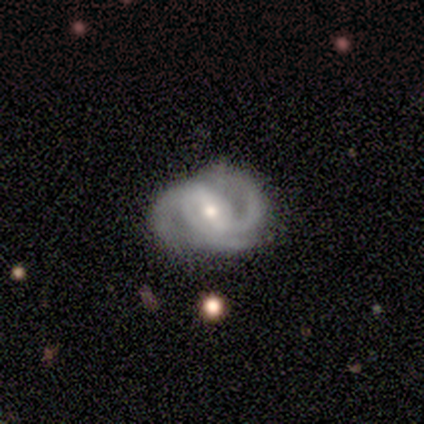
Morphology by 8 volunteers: A featured or disk galaxy (100%) with a strong bar (62%), 2 (62%) medium (62%) spiral arms (100%) and a moderate central bulge (75%).

Vote fractions:
- Smooth or featured? featured or disk: 100% / smooth: 0% / star or artifact: 0%
- Edge-on disk? no: 100% / yes: 0%
- Bar? strong: 62% / weak: 25% / no: 12%
- Spiral arms? yes: 100% / no: 0%
- Spiral winding? medium: 62% / loose: 25% / tight: 12%
- Spiral arm count? 2: 62% / 3: 38% / 1: 0% / 4: 0% / more than 4: 0% / can't tell: 0%
- Bulge size? moderate: 75% / small: 25% / dominant: 0% / large: 0% / none: 0%
- Merging? none: 75% / minor disturbance: 25% / major disturbance: 0% / merger: 0%